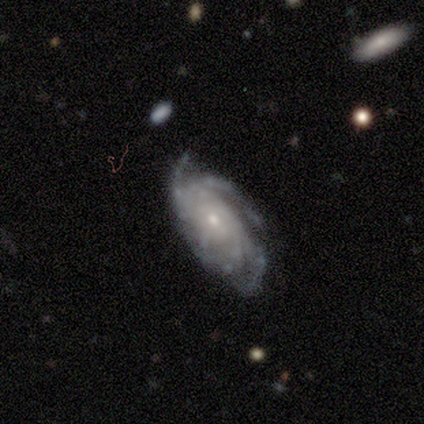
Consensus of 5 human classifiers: This is clearly a featured or disk galaxy (100%). It is clearly not viewed edge-on (100%). Bar: clearly no (80%). Spiral arm pattern: clearly yes (80%). Spiral arm count: likely 4 (75%). Spiral winding: possibly tight (50%). Central bulge: clearly small (80%). Merging: clearly none (80%).